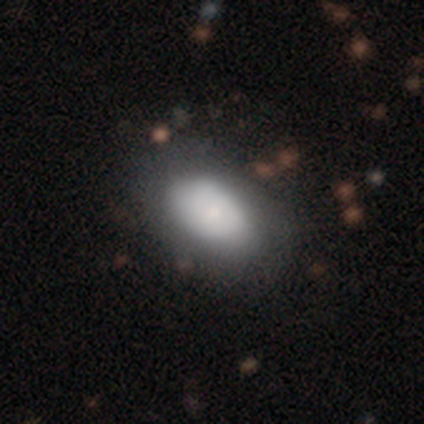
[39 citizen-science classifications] Morphology: type=smooth (69%); roundness=in between (100%); merging=none (47%).